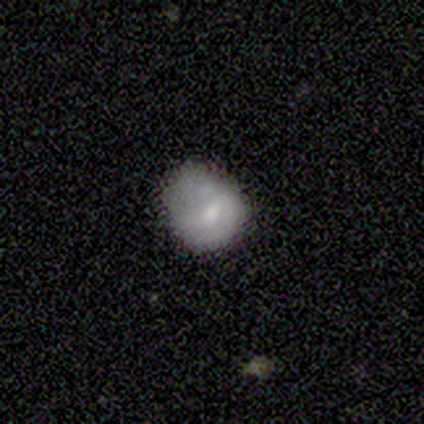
Morphology: type=smooth (75%); roundness=round (67%); merging=minor disturbance (50%).